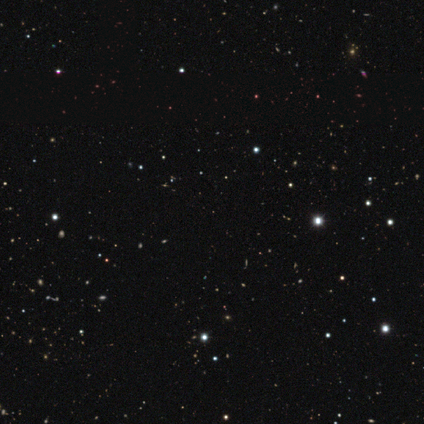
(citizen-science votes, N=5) star or artifact 80%, smooth 20%, featured or disk 0%.